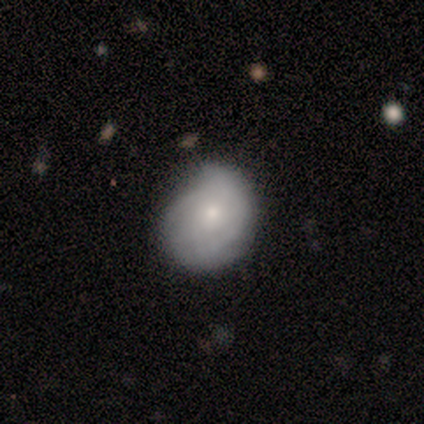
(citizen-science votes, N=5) smooth 60%, featured or disk 40%, star or artifact 0%. Down the decision tree: how rounded — round (100%); merging — none (40%, tied with minor disturbance).